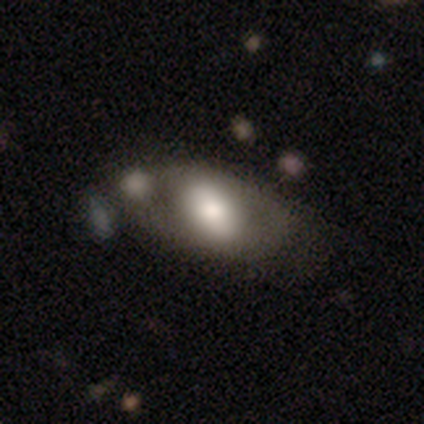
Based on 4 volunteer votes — Volunteers were most divided on "smooth or featured" (2-way tie): smooth: 50%, featured or disk: 50%, star or artifact: 0%. More confident: how rounded — in between (100%); merging — none (100%).